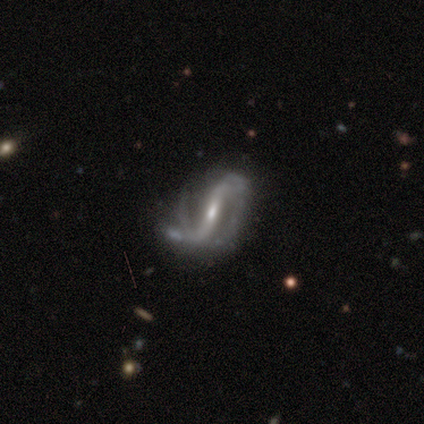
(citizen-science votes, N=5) Smooth or featured? 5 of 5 (100%) said featured or disk. Edge-on disk? 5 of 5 (100%) said no. Bar? 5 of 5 (100%) said strong. Spiral arms? 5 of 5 (100%) said yes. Spiral winding? 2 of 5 (40%, tied with loose) said medium. Spiral arm count? 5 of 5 (100%) said 2. Bulge size? 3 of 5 (60%) said small. Merging? 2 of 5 (40%) said minor disturbance.